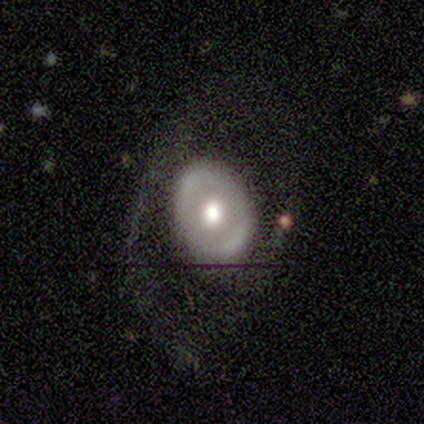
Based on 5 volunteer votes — Smooth or featured?
  - featured or disk: 60% *
  - smooth: 40%
  - star or artifact: 0%
Edge-on disk?
  - no: 100% *
  - yes: 0%
Bar?
  - weak: 67% *
  - strong: 33%
  - no: 0%
Spiral arms?
  - yes: 67% *
  - no: 33%
Spiral winding?
  - loose: 100% *
  - tight: 0%
  - medium: 0%
Spiral arm count?
  - 1: 50% * (tied)
  - 2: 50% * (tied)
  - 3: 0%
  - 4: 0%
  - more than 4: 0%
  - can't tell: 0%
Bulge size?
  - moderate: 67% *
  - large: 33%
  - dominant: 0%
  - small: 0%
  - none: 0%
Merging?
  - none: 60% *
  - minor disturbance: 20%
  - major disturbance: 20%
  - merger: 0%